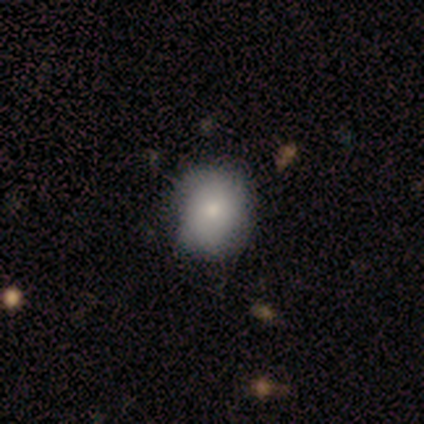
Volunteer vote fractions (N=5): Volunteers were most divided on "how rounded": round: 75%, in between: 25%, cigar-shaped: 0%. More confident: smooth or featured — smooth (80%); merging — none (80%).